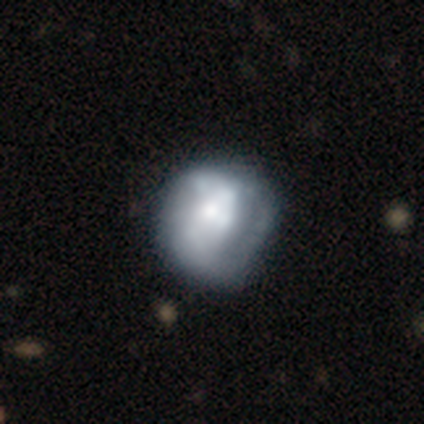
Smooth or featured? 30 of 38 (79%) said featured or disk. Edge-on disk? 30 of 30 (100%) said no. Bar? 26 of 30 (87%) said no. Spiral arms? 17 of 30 (57%) said no. Bulge size? 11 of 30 (37%) said moderate. Merging? 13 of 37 (35%) said none.